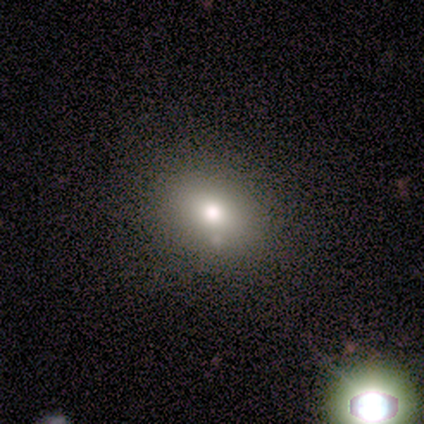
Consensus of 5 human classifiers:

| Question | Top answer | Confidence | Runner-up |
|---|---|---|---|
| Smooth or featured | smooth | 60% | featured or disk (20%) |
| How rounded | in between | 67% | round (33%) |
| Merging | none | 50% | tied: minor disturbance (50%) |